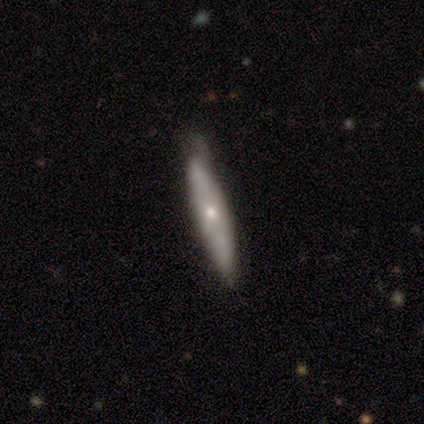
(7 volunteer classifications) Smooth or featured? 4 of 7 (57%) said smooth. How rounded? 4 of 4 (100%) said cigar-shaped. Merging? 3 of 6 (50%, tied with minor disturbance) said none.